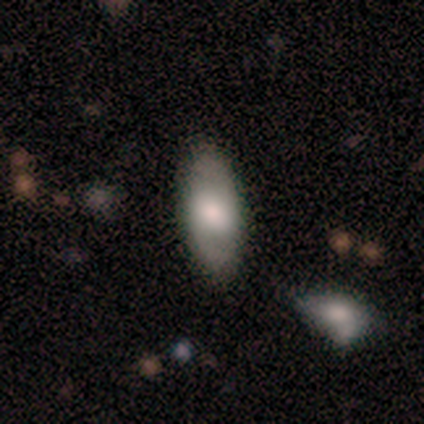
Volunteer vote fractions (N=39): Smooth or featured?
  - smooth: 59% *
  - featured or disk: 36%
  - star or artifact: 5%
How rounded?
  - in between: 96% *
  - round: 4%
  - cigar-shaped: 0%
Merging?
  - none: 84% *
  - minor disturbance: 11%
  - major disturbance: 3%
  - merger: 3%